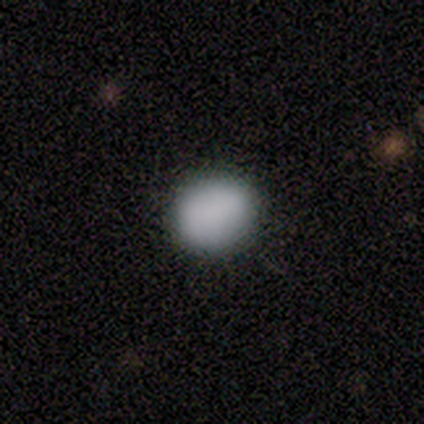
A smooth galaxy with no disk features (82%) that is round (81%). Merging: none (97%).